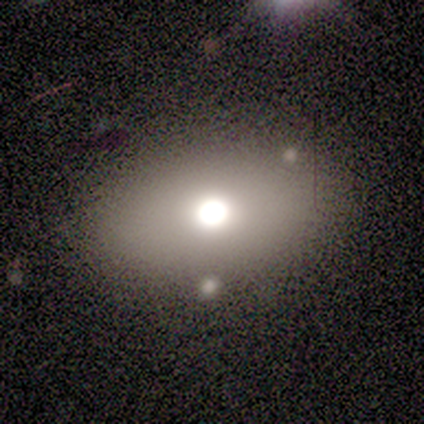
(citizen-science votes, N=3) Volunteers were most divided on "merging": minor disturbance: 67%, none: 33%, major disturbance: 0%, merger: 0%. More confident: smooth or featured — smooth (100%); how rounded — in between (100%).